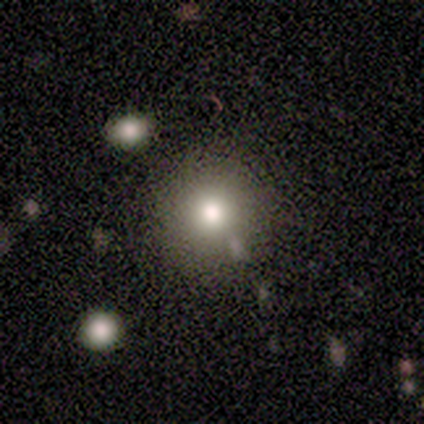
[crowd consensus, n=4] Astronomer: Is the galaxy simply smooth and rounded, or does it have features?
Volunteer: smooth — 100%.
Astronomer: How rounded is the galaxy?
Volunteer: round — 100%.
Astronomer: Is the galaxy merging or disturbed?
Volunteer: none — 100%.